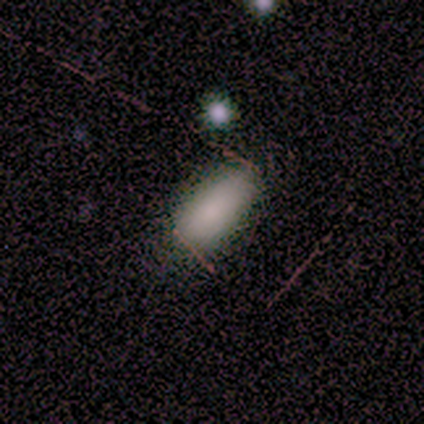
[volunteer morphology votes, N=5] This is clearly a smooth galaxy (80%). How rounded: clearly in between (100%). Merging: clearly none (100%).